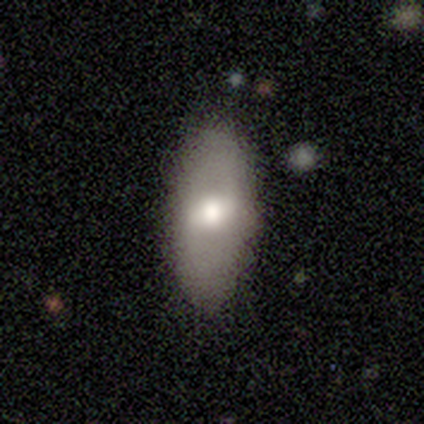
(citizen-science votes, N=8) A smooth galaxy with no disk features (62%) that is in between round and cigar-shaped (100%).

Vote fractions:
- Smooth or featured? smooth: 62% / featured or disk: 38% / star or artifact: 0%
- How rounded? in between: 100% / round: 0% / cigar-shaped: 0%
- Merging? none: 100% / minor disturbance: 0% / major disturbance: 0% / merger: 0%